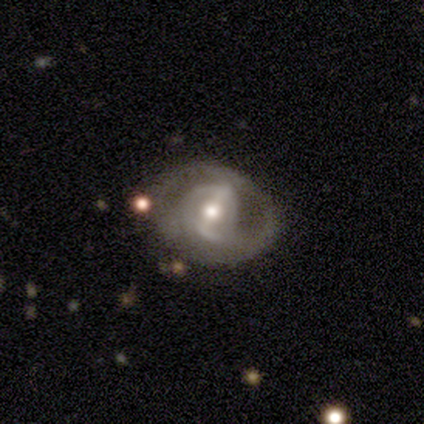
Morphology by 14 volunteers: This appears to be a featured or disk galaxy (100%) with a strong bar (62%), 2 (91%) tight (73%) spiral arms (85%) and a moderate central bulge (77%). Merging: none (79%).